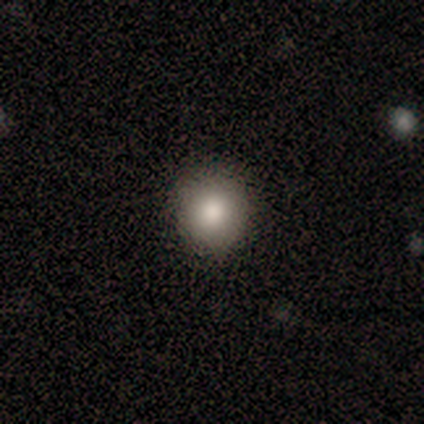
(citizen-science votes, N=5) A smooth galaxy with no disk features (100%) that is round (100%). Merging: none (60%).